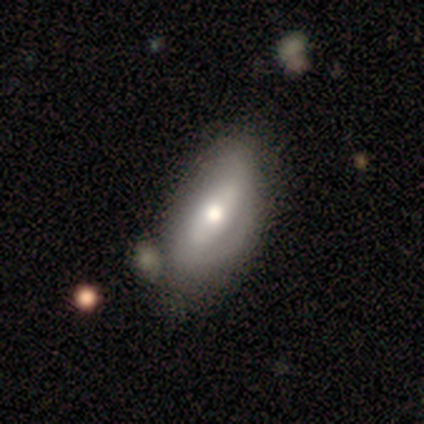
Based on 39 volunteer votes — Smooth or featured: smooth — 62% (featured or disk — 36%)
How rounded: in between — 100%
Merging: none — 37% (minor disturbance — 21%)